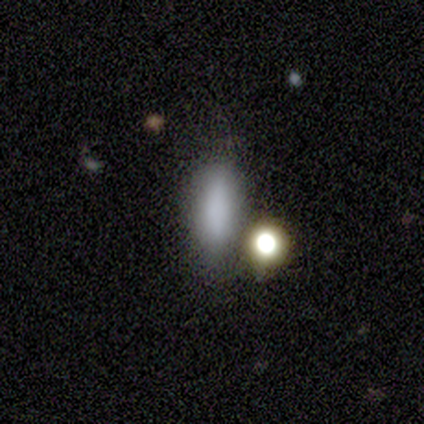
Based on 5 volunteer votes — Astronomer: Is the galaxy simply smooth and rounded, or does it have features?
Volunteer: smooth — 100%.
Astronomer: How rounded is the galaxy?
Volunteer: in between — 60% (runner-up: cigar-shaped, 40%).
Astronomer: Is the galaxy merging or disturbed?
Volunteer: none — 60%.